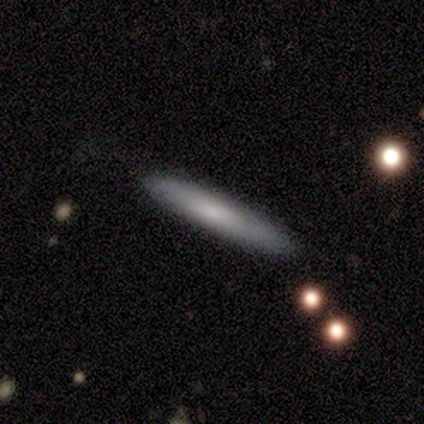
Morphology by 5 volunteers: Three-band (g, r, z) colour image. It shows a smooth galaxy with no disk features (100%) that is cigar-shaped (100%). Merging: none (100%).